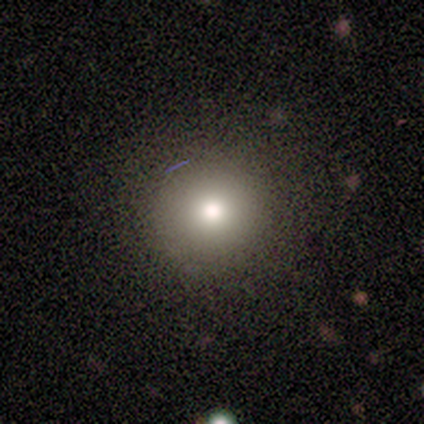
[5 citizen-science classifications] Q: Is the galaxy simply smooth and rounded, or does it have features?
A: smooth — 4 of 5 (80%).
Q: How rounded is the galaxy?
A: round — 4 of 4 (100%).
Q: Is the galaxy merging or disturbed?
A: none — 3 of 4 (75%).